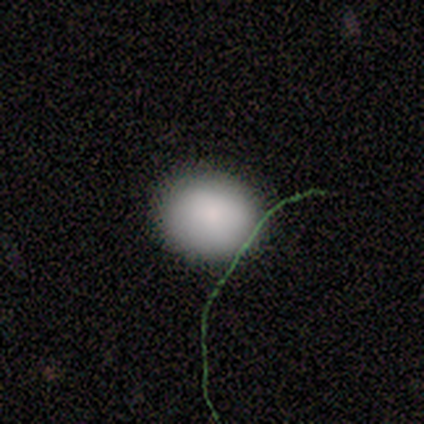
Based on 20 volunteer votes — This is clearly a smooth galaxy (95%). How rounded: possibly round (53%). Merging: likely none (68%).